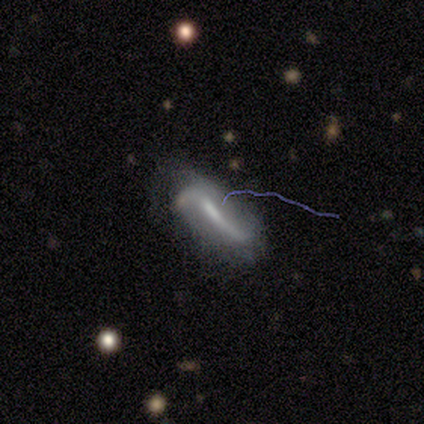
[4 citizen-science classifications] Volunteers were most divided on "smooth or featured": star or artifact: 50%, smooth: 25%, featured or disk: 25%.